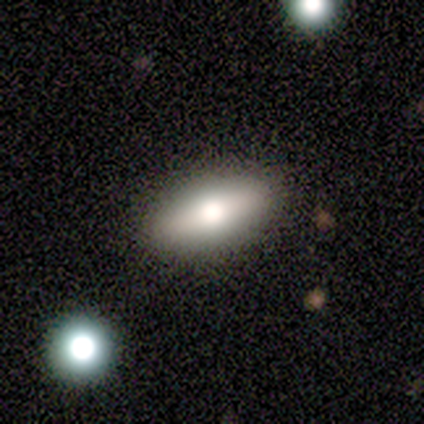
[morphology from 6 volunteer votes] type=smooth (50%, tied with featured or disk); roundness=in between (100%); merging=none (83%).